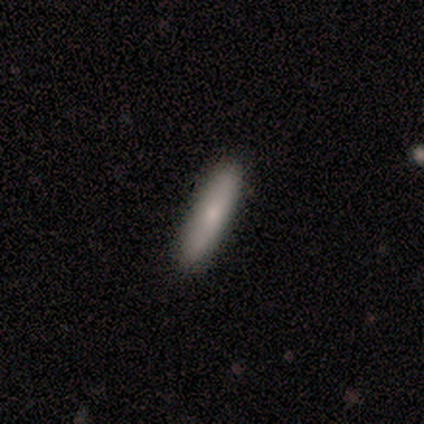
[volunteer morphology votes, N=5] A smooth galaxy with no disk features (60%) that is cigar-shaped (100%). Merging: none (100%).